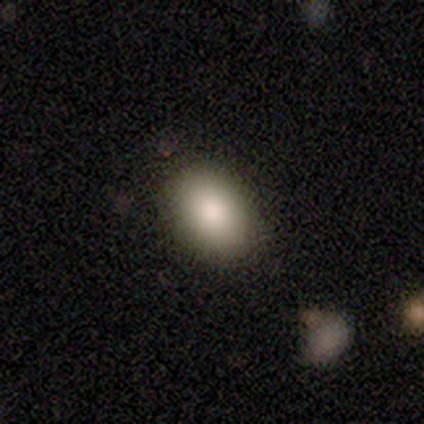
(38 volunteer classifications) Overall: smooth (79%). How rounded: in between (80%). Merging: none (91%).